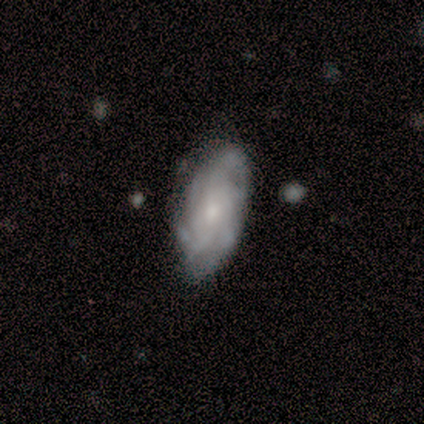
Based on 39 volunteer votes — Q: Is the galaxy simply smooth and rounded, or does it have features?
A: featured or disk — 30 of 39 (77%).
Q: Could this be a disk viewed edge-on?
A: no — 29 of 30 (97%).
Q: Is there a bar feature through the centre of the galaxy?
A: no — 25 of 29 (86%).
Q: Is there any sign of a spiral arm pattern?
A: yes — 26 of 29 (90%).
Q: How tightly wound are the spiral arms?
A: tight — 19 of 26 (73%).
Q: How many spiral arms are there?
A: can't tell — 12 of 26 (46%).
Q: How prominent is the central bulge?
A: small — 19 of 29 (66%).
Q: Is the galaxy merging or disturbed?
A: none — 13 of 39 (33%).